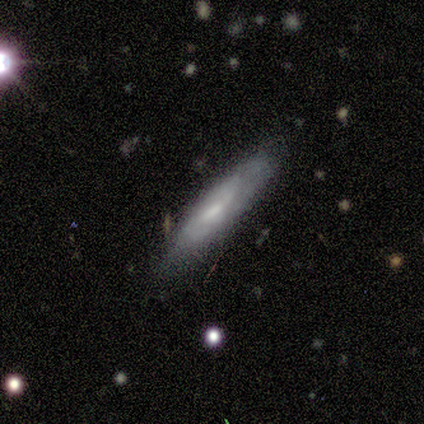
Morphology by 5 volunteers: A featured or disk galaxy (60%) with a weak bar (100%), 2 (50%, tied with can't tell) medium (50%, tied with loose) spiral arms (100%) and a moderate central bulge (50%, tied with small).

Vote fractions:
- Smooth or featured? featured or disk: 60% / smooth: 40% / star or artifact: 0%
- Edge-on disk? no: 67% / yes: 33%
- Bar? weak: 100% / strong: 0% / no: 0%
- Spiral arms? yes: 100% / no: 0%
- Spiral winding? medium: 50% (tied) / loose: 50% (tied) / tight: 0%
- Spiral arm count? 2: 50% (tied) / can't tell: 50% (tied) / 1: 0% / 3: 0% / 4: 0% / more than 4: 0%
- Bulge size? moderate: 50% (tied) / small: 50% (tied) / dominant: 0% / large: 0% / none: 0%
- Merging? none: 60% / minor disturbance: 40% / major disturbance: 0% / merger: 0%